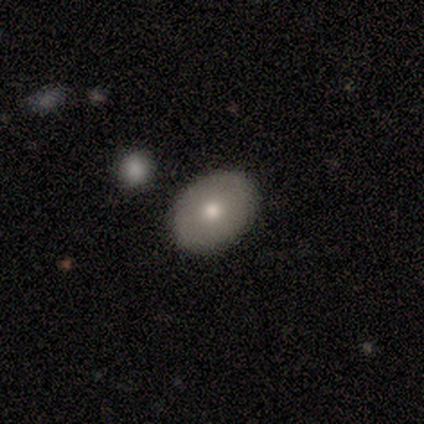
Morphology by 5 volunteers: Smooth or featured: smooth — 60% (featured or disk — 40%)
How rounded: in between — 100%
Merging: none — 100%